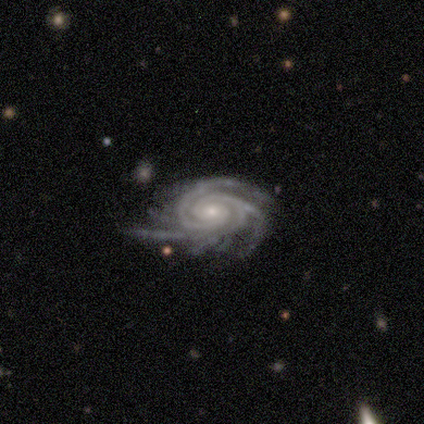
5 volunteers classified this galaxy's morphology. Smooth or featured? featured or disk (100%)
Edge-on disk? no (100%)
Bar? no (80%)
Spiral arms? yes (100%)
Spiral winding? tight (60%)
Spiral arm count? 3 (40%, tied with more than 4)
Bulge size? small (80%)
Merging? none (80%)